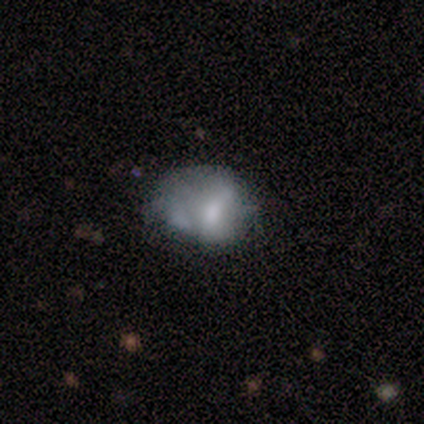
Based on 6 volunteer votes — A smooth galaxy with no disk features (50%) that is in between round and cigar-shaped (67%). Merging: minor disturbance (60%).